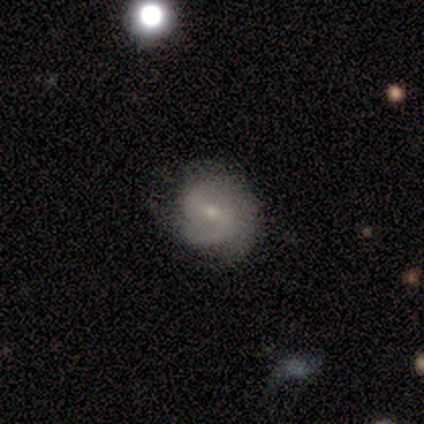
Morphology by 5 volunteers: Q: Smooth or featured?
A: featured or disk (60%); runner-up: smooth (40%)
Q: Edge-on disk?
A: no (100%)
Q: Bar?
A: weak (67%); runner-up: no (33%)
Q: Spiral arms?
A: yes (67%); runner-up: no (33%)
Q: Spiral winding?
A: tight (50%); tied with: medium (50%)
Q: Spiral arm count?
A: 2 (50%); tied with: can't tell (50%)
Q: Bulge size?
A: small (100%)
Q: Merging?
A: none (60%); runner-up: minor disturbance (40%)